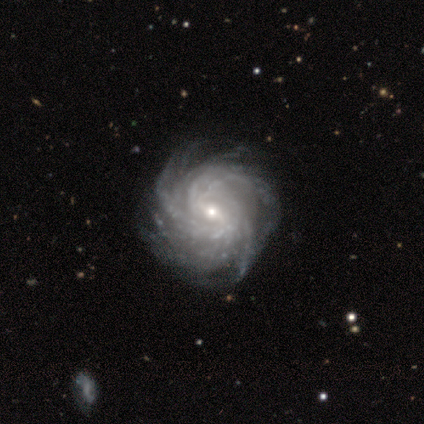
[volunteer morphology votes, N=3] Q: Smooth or featured?
A: featured or disk (100%)
Q: Edge-on disk?
A: no (100%)
Q: Bar?
A: strong (33%); tied with: weak (33%); no (33%)
Q: Spiral arms?
A: yes (67%); runner-up: no (33%)
Q: Spiral winding?
A: tight (100%)
Q: Spiral arm count?
A: 3 (50%); tied with: more than 4 (50%)
Q: Bulge size?
A: small (67%); runner-up: moderate (33%)
Q: Merging?
A: none (67%); runner-up: minor disturbance (33%)